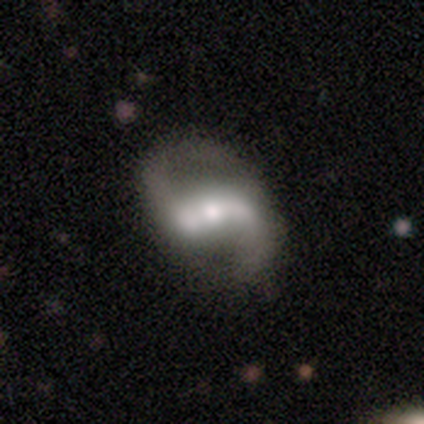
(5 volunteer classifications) This appears to be a featured or disk galaxy (100%) with a strong bar (80%), 2 (100%) loose (60%) spiral arms (100%) and a moderate central bulge (80%). Merging: none (80%).